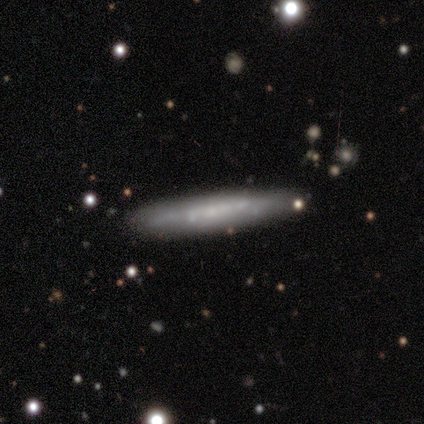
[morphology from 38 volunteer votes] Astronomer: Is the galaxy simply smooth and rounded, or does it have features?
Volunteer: featured or disk — 55% (runner-up: smooth, 39%).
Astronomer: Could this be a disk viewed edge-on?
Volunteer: yes — 95%.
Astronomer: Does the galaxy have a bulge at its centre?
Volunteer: none — 80%.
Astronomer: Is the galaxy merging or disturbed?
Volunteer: none — 86%.